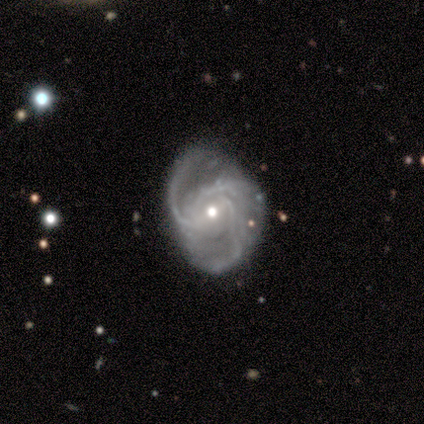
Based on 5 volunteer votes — Smooth or featured?
  - featured or disk: 80% *
  - smooth: 20%
  - star or artifact: 0%
Edge-on disk?
  - no: 100% *
  - yes: 0%
Bar?
  - weak: 50% * (tied)
  - no: 50% * (tied)
  - strong: 0%
Spiral arms?
  - yes: 100% *
  - no: 0%
Spiral winding?
  - loose: 75% *
  - medium: 25%
  - tight: 0%
Spiral arm count?
  - 3: 75% *
  - 2: 25%
  - 1: 0%
  - 4: 0%
  - more than 4: 0%
  - can't tell: 0%
Bulge size?
  - moderate: 75% *
  - small: 25%
  - dominant: 0%
  - large: 0%
  - none: 0%
Merging?
  - none: 60% *
  - minor disturbance: 40%
  - major disturbance: 0%
  - merger: 0%